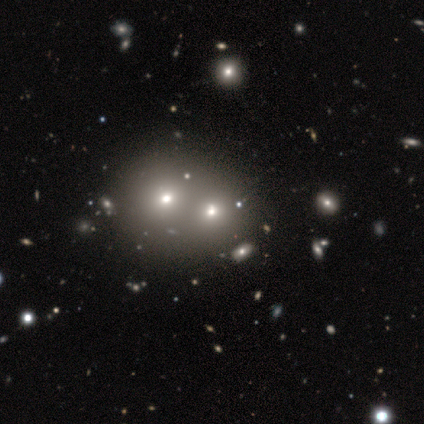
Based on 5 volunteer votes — Volunteers were most divided on "how rounded" (2-way tie): round: 50%, in between: 50%, cigar-shaped: 0%. More confident: merging — merger (100%); smooth or featured — smooth (80%).